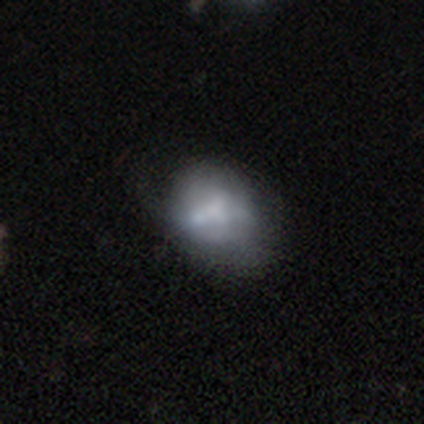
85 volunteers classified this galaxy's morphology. type=featured or disk (51%); edge-on=no (95%); bar=no (93%); spiral arms=no (93%); bulge=none (34%); merging=none (48%).